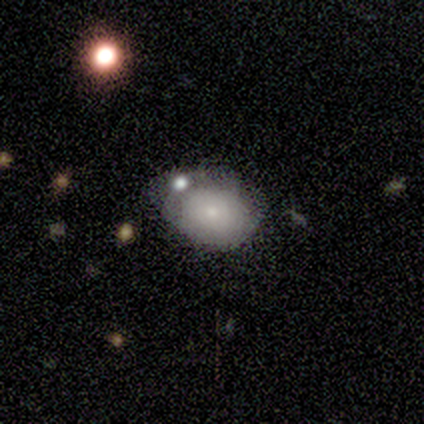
This is possibly a smooth galaxy (59%). How rounded: likely in between (68%). Merging: marginally none (35%).